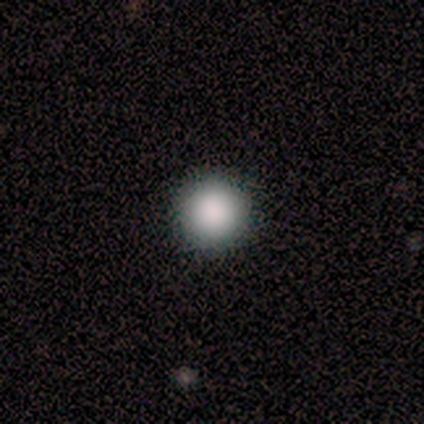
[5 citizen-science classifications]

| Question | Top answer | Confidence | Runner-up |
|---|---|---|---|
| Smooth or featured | smooth | 100% | — |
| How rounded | round | 100% | — |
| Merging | none | 80% | major disturbance (20%) |